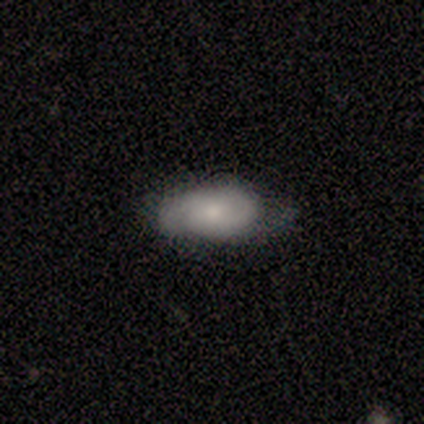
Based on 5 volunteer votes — Q: Smooth or featured?
A: smooth (80%); runner-up: featured or disk (20%)
Q: How rounded?
A: in between (100%)
Q: Merging?
A: minor disturbance (80%); runner-up: none (20%)